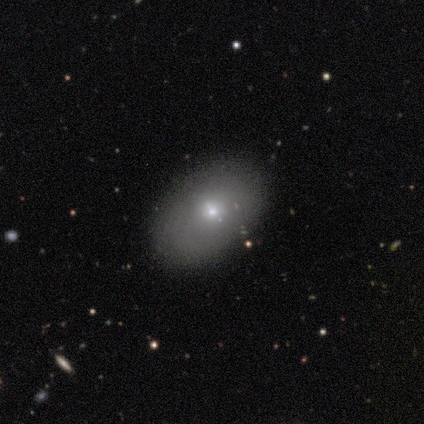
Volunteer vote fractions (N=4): This appears to be a smooth galaxy with no disk features (75%) that is in between round and cigar-shaped (100%). Merging: none (67%).